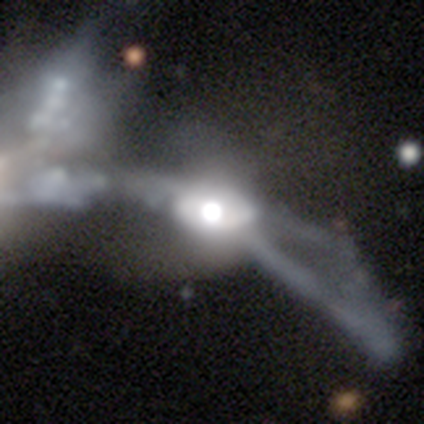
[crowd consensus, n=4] Smooth or featured? 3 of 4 (75%) said featured or disk. Edge-on disk? 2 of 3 (67%) said no. Bar? 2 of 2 (100%) said no. Spiral arms? 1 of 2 (50%, tied with no) said yes. Spiral winding? 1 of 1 (100%) said loose. Spiral arm count? 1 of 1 (100%) said 2. Bulge size? 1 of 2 (50%, tied with moderate) said large. Merging? 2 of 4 (50%) said merger.